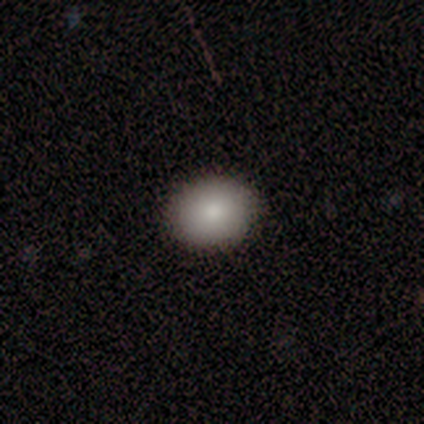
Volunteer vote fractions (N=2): This appears to be a smooth galaxy with no disk features (50%, tied with star or artifact) that is round (100%). Merging: none (100%).